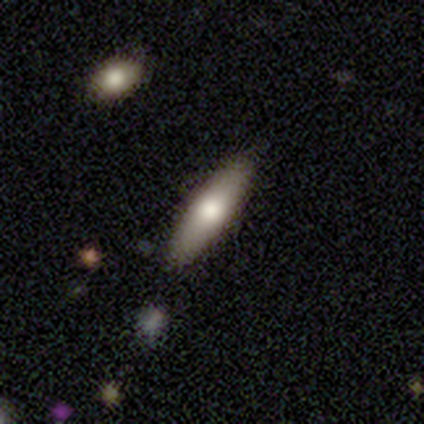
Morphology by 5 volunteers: Volunteers were most divided on "how rounded": in between: 60%, cigar-shaped: 40%, round: 0%. More confident: smooth or featured — smooth (100%); merging — none (100%).